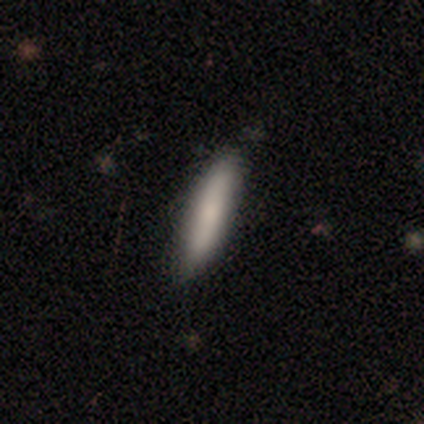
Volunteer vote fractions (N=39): Smooth or featured? smooth (77%)
How rounded? cigar-shaped (93%)
Merging? none (87%)